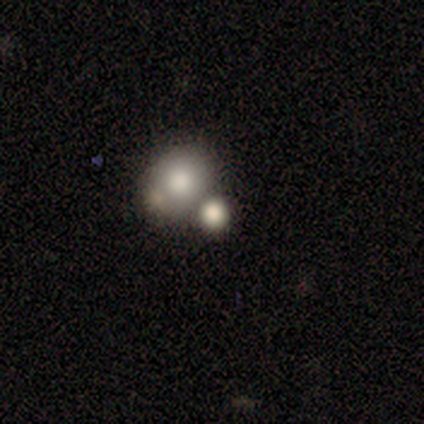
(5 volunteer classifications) Smooth or featured: star or artifact — 60% (smooth — 40%)